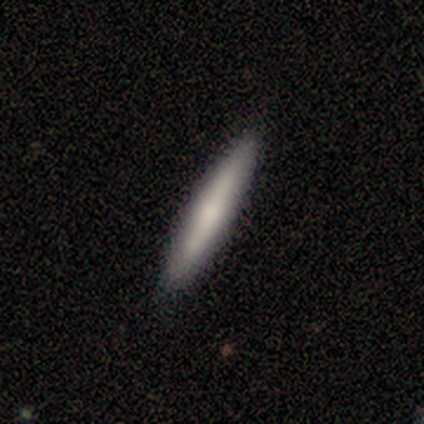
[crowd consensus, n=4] Q: Smooth or featured?
A: smooth (50%); tied with: featured or disk (50%)
Q: How rounded?
A: cigar-shaped (100%)
Q: Merging?
A: none (100%)